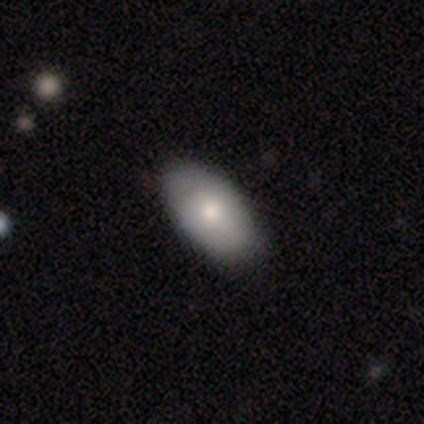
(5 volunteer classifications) Morphology: type=smooth (60%); roundness=cigar-shaped (67%); merging=none (60%).